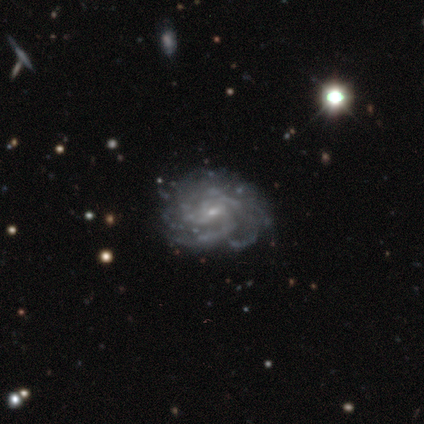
Smooth or featured?
  - featured or disk: 89% *
  - star or artifact: 9%
  - smooth: 2%
Edge-on disk?
  - no: 100% *
  - yes: 0%
Bar?
  - no: 50% *
  - weak: 42%
  - strong: 8%
Spiral arms?
  - yes: 92% *
  - no: 8%
Spiral winding?
  - tight: 57% *
  - medium: 30%
  - loose: 14%
Spiral arm count?
  - can't tell: 38% *
  - 3: 27%
  - 4: 19%
  - more than 4: 14%
  - 2: 3%
  - 1: 0%
Bulge size?
  - small: 75% *
  - moderate: 18%
  - none: 5%
  - dominant: 2%
  - large: 0%
Merging?
  - none: 71% *
  - minor disturbance: 24%
  - major disturbance: 5%
  - merger: 0%